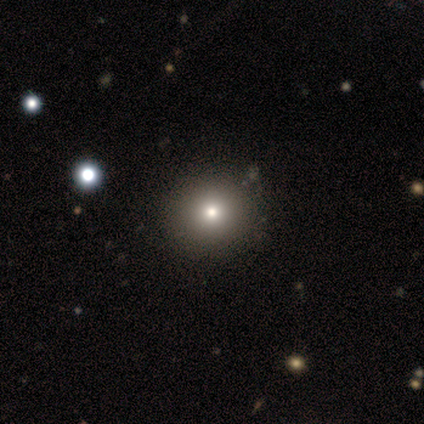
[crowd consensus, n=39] Morphology: type=smooth (79%); roundness=round (87%); merging=none (52%).